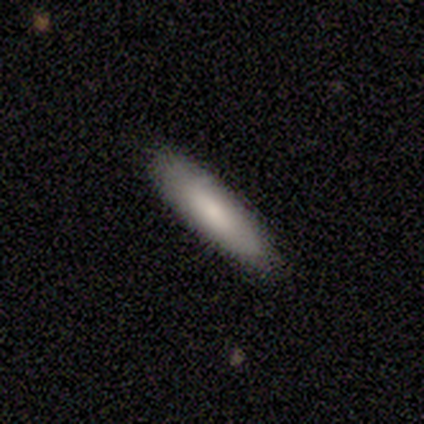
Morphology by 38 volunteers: type=smooth (66%); roundness=cigar-shaped (68%); merging=none (94%).